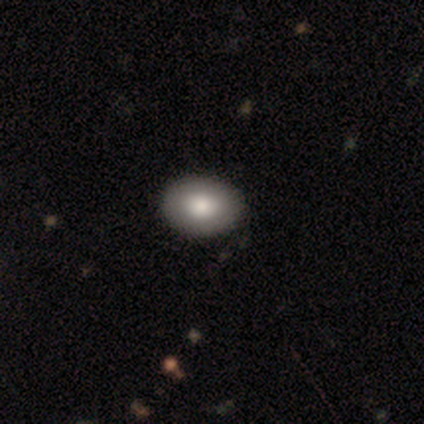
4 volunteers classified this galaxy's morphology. smooth 100%, featured or disk 0%, star or artifact 0%. Down the decision tree: how rounded — in between (75%); merging — none (100%).